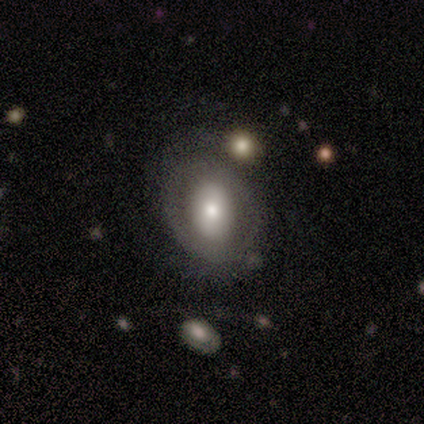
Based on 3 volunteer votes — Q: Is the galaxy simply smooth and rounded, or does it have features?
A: featured or disk — 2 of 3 (67%).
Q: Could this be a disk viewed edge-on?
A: no — 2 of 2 (100%).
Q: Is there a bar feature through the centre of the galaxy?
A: no — 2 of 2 (100%).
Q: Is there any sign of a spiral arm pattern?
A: no — 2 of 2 (100%).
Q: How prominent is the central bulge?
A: moderate — 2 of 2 (100%).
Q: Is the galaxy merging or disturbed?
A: minor disturbance — 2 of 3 (67%).